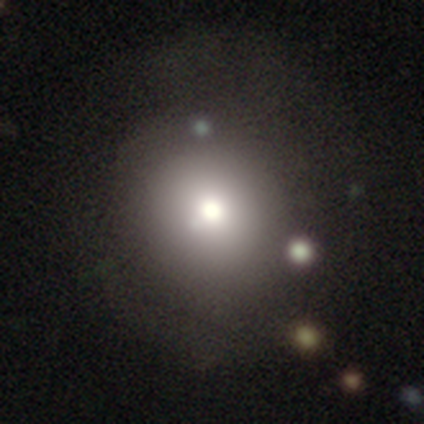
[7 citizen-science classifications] Q: Smooth or featured?
A: smooth (100%)
Q: How rounded?
A: round (100%)
Q: Merging?
A: none (71%); runner-up: minor disturbance (14%)